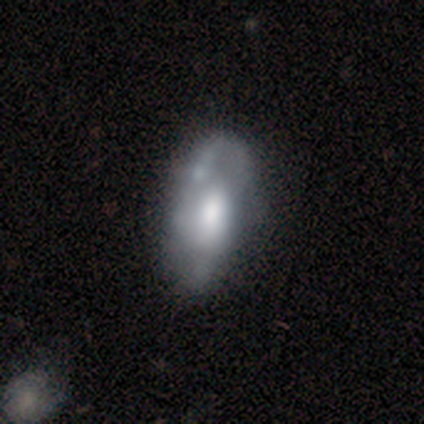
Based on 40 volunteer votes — smooth_or_featured: featured or disk (p=0.50) [alt: smooth p=0.47]
disk_edge_on: no (p=1.00)
bar: no (p=0.90) [alt: weak p=0.10]
has_spiral_arms: no (p=0.65) [alt: yes p=0.35]
bulge_size: large (p=0.45) [tied with: moderate p=0.45]
merging: none (p=0.26) [alt: minor disturbance p=0.18]